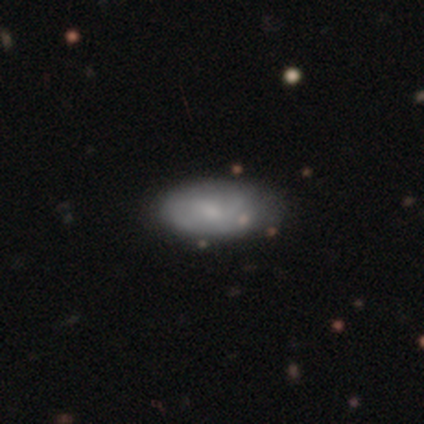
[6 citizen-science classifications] Morphology: type=smooth (100%); roundness=in between (100%); merging=none (67%).